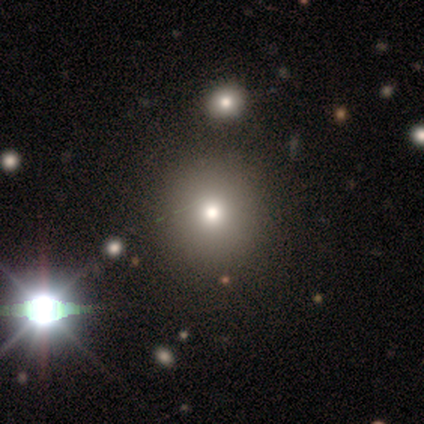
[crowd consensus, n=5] smooth 100%, featured or disk 0%, star or artifact 0%. Down the decision tree: how rounded — round (100%); merging — none (100%).